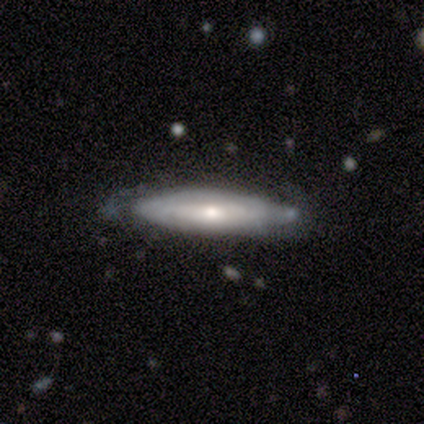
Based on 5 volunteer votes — Overall: featured or disk (100%). Edge-on disk: yes (60%; no 40%). Edge-on bulge: boxy (33%, tied with none and rounded). Merging: none (60%; minor disturbance 40%).